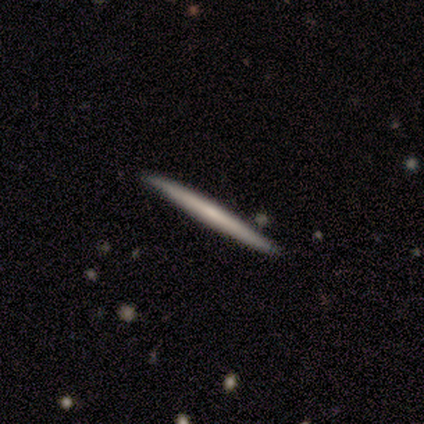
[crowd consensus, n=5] This is likely a featured or disk galaxy (60%). It is clearly viewed edge-on (100%). Edge-on bulge: clearly none (100%). Merging: likely none (60%).